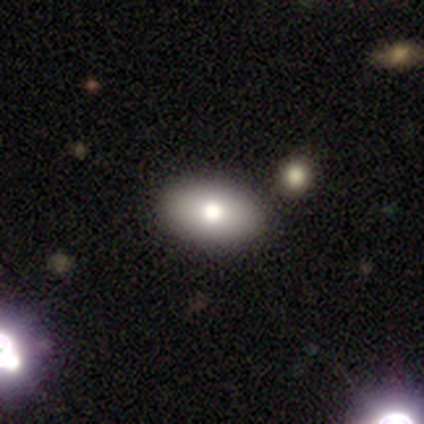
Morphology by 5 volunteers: Overall: smooth (80%). How rounded: in between (75%). Merging: none (80%).